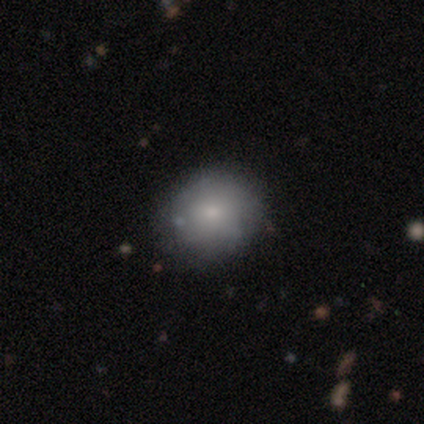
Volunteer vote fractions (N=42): This appears to be a smooth galaxy with no disk features (50%) that is round (57%). Merging: none (80%).